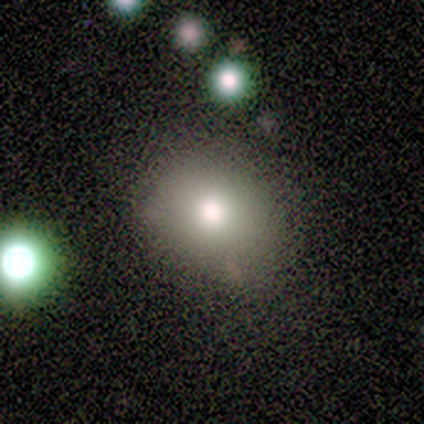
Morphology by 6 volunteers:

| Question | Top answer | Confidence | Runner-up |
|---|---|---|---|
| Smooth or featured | smooth | 50% | tied: star or artifact (50%) |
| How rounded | round | 100% | — |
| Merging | none | 100% | — |